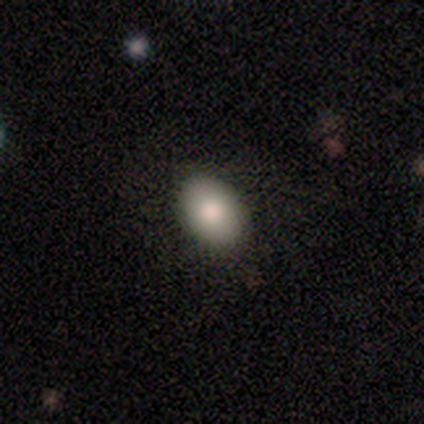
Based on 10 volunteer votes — Volunteers were most divided on "how rounded": in between: 90%, round: 10%, cigar-shaped: 0%. More confident: smooth or featured — smooth (100%); merging — none (100%).